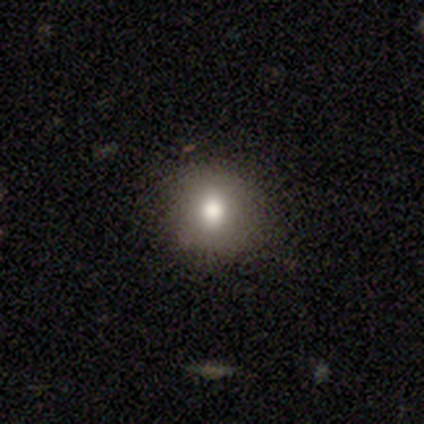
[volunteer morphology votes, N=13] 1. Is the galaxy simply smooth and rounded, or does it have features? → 92% smooth, 8% featured or disk, 0% star or artifact.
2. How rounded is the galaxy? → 83% round, 17% in between, 0% cigar-shaped.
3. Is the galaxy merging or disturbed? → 92% none, 8% minor disturbance, 0% major disturbance, 0% merger.